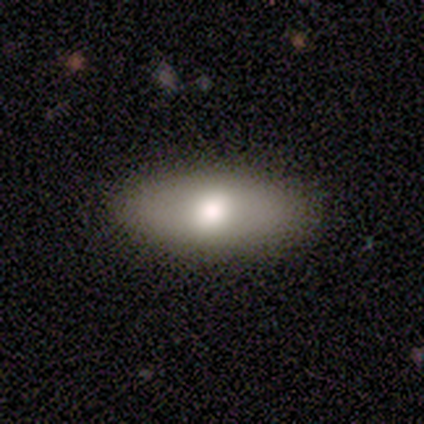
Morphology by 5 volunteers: smooth_or_featured: smooth (p=0.80) [alt: featured or disk p=0.20]
how_rounded: in between (p=1.00)
merging: none (p=0.80) [alt: major disturbance p=0.20]